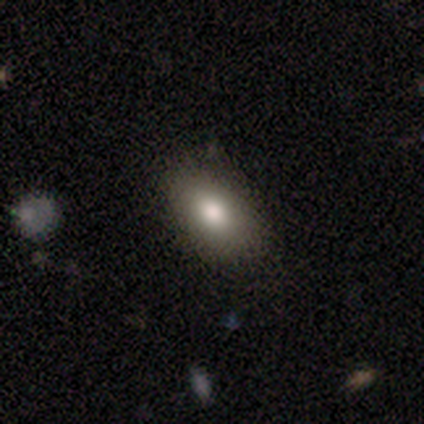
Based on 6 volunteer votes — smooth-or-featured: smooth: 100% | featured or disk: 0% | star or artifact: 0%
  how-rounded: in between: 100% | round: 0% | cigar-shaped: 0%
  merging: none: 67% | minor disturbance: 33% | major disturbance: 0% | merger: 0%